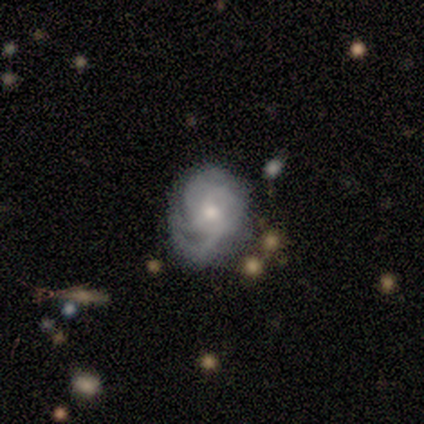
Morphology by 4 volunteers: featured or disk 75%, smooth 25%, star or artifact 0%. Down the decision tree: edge-on disk — no (100%); bar — no (100%); spiral arms — yes (67%); spiral arm count — 3 (50%, tied with can't tell); spiral winding — tight (50%, tied with medium); bulge size — small (100%); merging — major disturbance (75%).